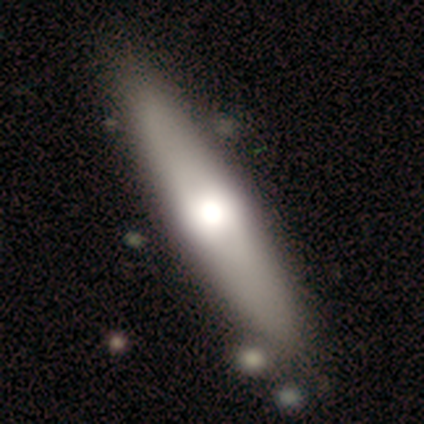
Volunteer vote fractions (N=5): smooth-or-featured: smooth: 40% (tied) | featured or disk: 40% (tied) | star or artifact: 20%
  how-rounded: in between: 50% (tied) | cigar-shaped: 50% (tied) | round: 0%
  merging: none: 75% | merger: 25% | minor disturbance: 0% | major disturbance: 0%